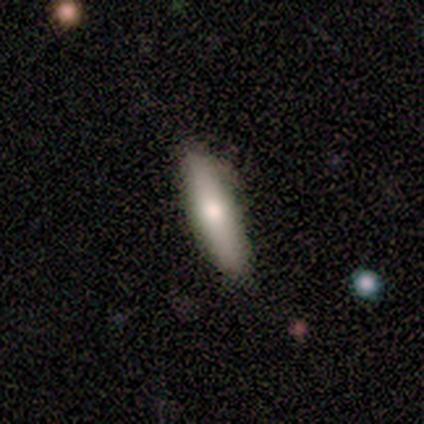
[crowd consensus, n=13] smooth_or_featured: smooth (p=0.85) [alt: featured or disk p=0.15]
how_rounded: cigar-shaped (p=0.73) [alt: in between p=0.18]
merging: none (p=0.62) [alt: minor disturbance p=0.31]